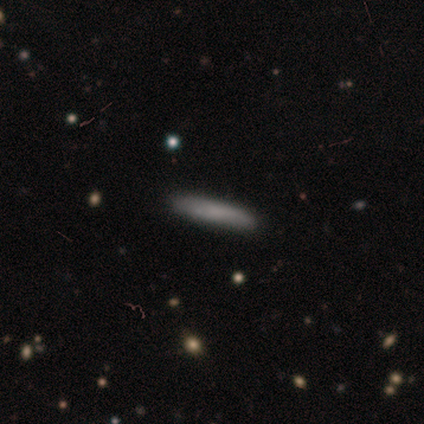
Volunteers were most divided on "how rounded": cigar-shaped: 83%, in between: 17%, round: 0%. More confident: smooth or featured — smooth (100%); merging — none (100%).